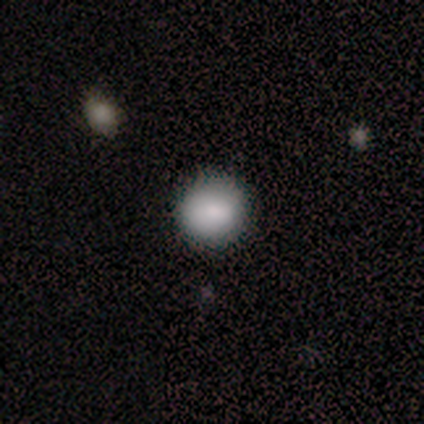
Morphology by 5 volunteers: This appears to be a smooth galaxy with no disk features (80%) that is round (100%). Merging: none (50%, tied with minor disturbance).